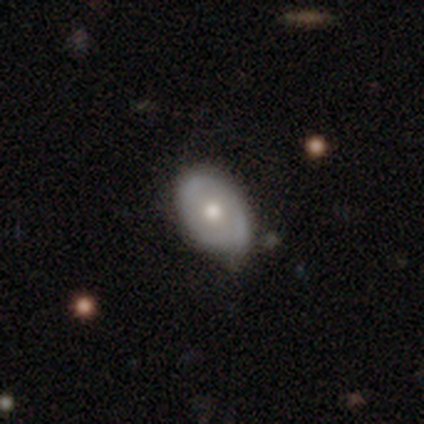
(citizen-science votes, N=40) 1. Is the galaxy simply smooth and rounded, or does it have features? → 50% smooth, 48% featured or disk, 2% star or artifact.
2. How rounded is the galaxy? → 75% in between, 25% round, 0% cigar-shaped.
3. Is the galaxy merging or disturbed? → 49% none, 44% minor disturbance, 5% merger, 3% major disturbance.